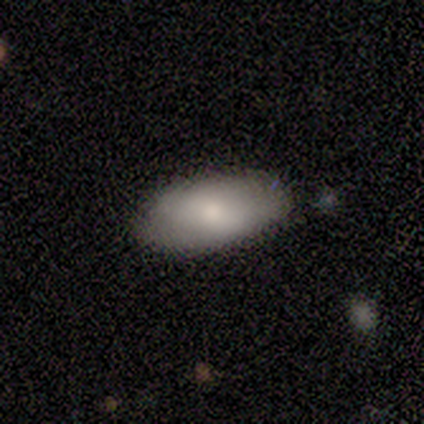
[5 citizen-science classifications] A smooth galaxy with no disk features (80%) that is in between round and cigar-shaped (100%).

Vote fractions:
- Smooth or featured? smooth: 80% / featured or disk: 20% / star or artifact: 0%
- How rounded? in between: 100% / round: 0% / cigar-shaped: 0%
- Merging? none: 80% / minor disturbance: 20% / major disturbance: 0% / merger: 0%